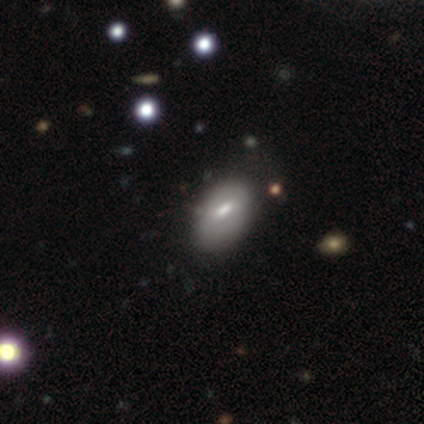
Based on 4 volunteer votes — Morphology: type=smooth (100%); roundness=in between (100%); merging=none (50%).